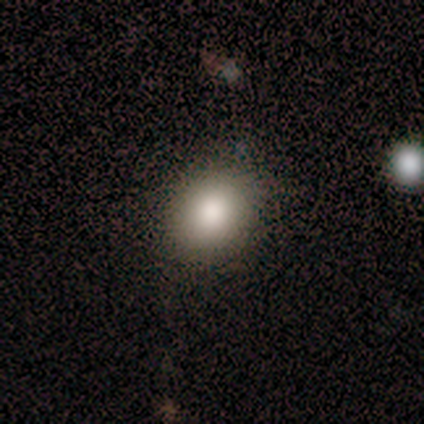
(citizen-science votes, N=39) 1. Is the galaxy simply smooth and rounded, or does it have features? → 79% smooth, 18% star or artifact, 3% featured or disk.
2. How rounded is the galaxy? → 61% round, 39% in between, 0% cigar-shaped.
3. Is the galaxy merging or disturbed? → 78% none, 12% minor disturbance, 6% major disturbance, 3% merger.